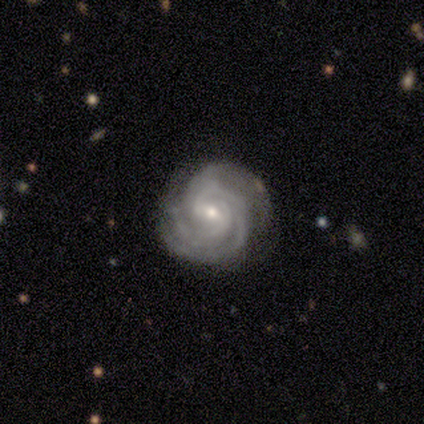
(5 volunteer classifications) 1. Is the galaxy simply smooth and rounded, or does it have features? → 100% featured or disk, 0% smooth, 0% star or artifact.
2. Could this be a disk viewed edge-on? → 100% no, 0% yes.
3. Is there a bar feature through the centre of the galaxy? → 60% weak, 20% strong, 20% no.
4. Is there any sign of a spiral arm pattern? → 100% yes, 0% no.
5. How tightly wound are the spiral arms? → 100% tight, 0% medium, 0% loose.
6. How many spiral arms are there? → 60% 3, 40% 2, 0% 1, 0% 4, 0% more than 4, 0% can't tell.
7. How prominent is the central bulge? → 80% small, 20% moderate, 0% dominant, 0% large, 0% none.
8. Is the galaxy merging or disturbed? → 80% none, 20% minor disturbance, 0% major disturbance, 0% merger.